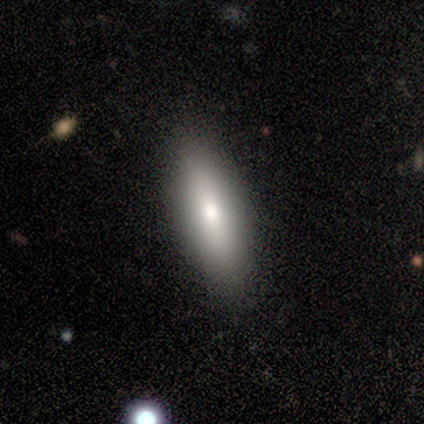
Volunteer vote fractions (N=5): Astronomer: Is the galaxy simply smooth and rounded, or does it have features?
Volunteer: smooth — 100%.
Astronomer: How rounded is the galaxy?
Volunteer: in between — 80%.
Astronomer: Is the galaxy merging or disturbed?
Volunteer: none — 100%.